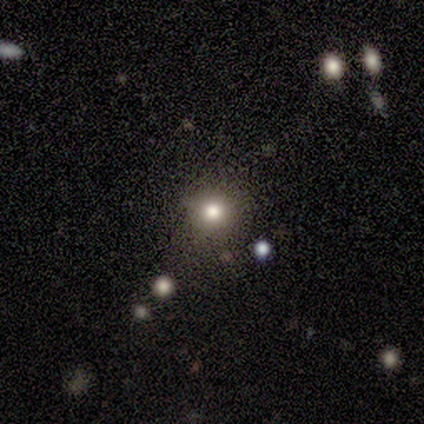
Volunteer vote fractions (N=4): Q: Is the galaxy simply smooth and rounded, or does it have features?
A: smooth — 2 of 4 (50%, tied with star or artifact).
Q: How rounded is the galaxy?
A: round — 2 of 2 (100%).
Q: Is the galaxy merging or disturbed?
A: none — 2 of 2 (100%).